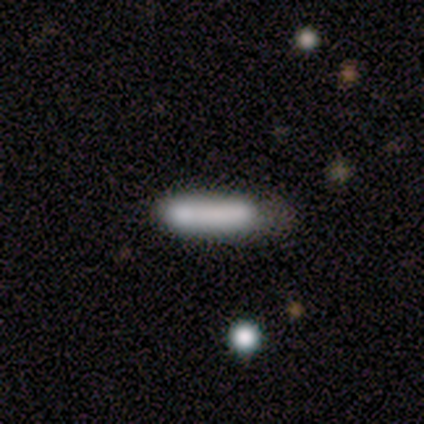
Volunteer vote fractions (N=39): Smooth or featured: smooth — 79% (featured or disk — 18%)
How rounded: cigar-shaped — 84% (in between — 16%)
Merging: none — 29% (tied with merger — 29%)